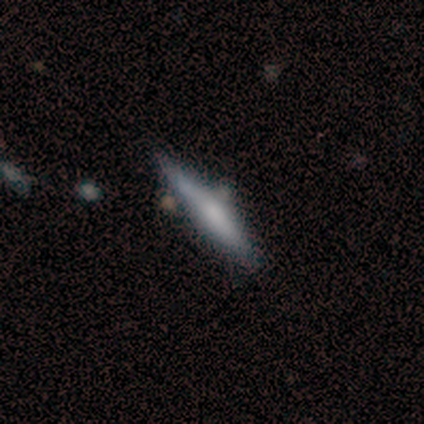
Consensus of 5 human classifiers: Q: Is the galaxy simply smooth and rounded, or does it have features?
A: smooth — 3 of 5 (60%).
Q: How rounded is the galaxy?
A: cigar-shaped — 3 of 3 (100%).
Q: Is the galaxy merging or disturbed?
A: none — 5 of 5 (100%).